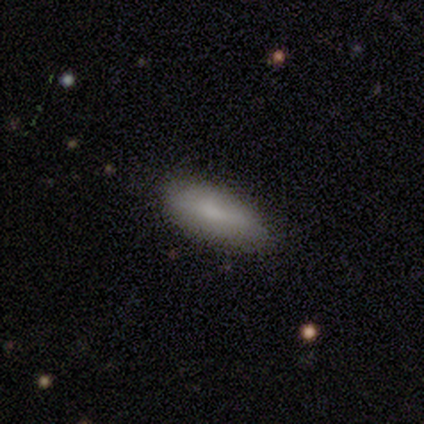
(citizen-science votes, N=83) smooth 84%, featured or disk 11%, star or artifact 5%. Down the decision tree: how rounded — in between (66%); merging — none (78%).